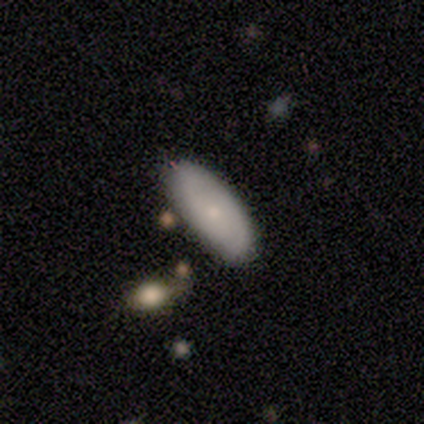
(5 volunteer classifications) Overall: smooth (60%; featured or disk 40%). How rounded: in between (100%). Merging: none (100%).